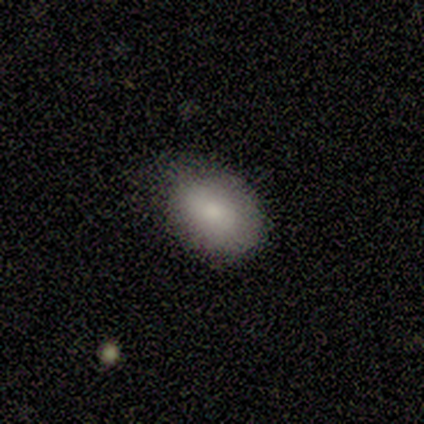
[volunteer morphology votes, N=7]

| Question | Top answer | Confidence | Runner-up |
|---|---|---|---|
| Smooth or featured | smooth | 100% | — |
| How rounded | in between | 86% | round (14%) |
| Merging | minor disturbance | 57% | none (43%) |